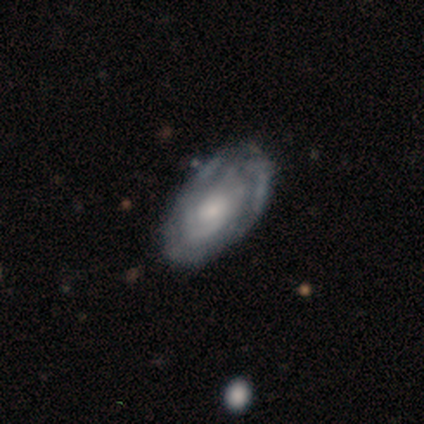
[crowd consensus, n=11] smooth-or-featured: featured or disk: 82% | smooth: 18% | star or artifact: 0%
  disk-edge-on: no: 100% | yes: 0%
    bar: no: 89% | weak: 11% | strong: 0%
    has-spiral-arms: yes: 100% | no: 0%
      spiral-winding: tight: 78% | medium: 22% | loose: 0%
      spiral-arm-count: can't tell: 56% | 2: 33% | more than 4: 11% | 1: 0% | 3: 0% | 4: 0%
    bulge-size: moderate: 44% (tied) | small: 44% (tied) | large: 11% | dominant: 0% | none: 0%
  merging: none: 55% | minor disturbance: 27% | major disturbance: 18% | merger: 0%